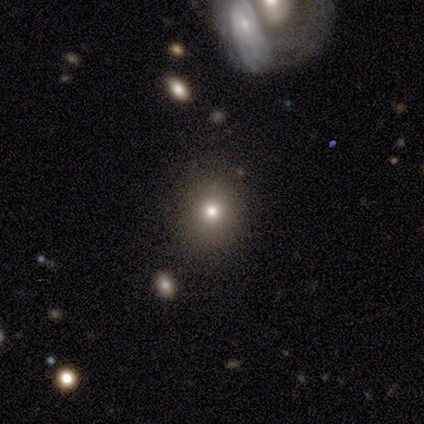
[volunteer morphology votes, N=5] This appears to be a smooth galaxy with no disk features (100%) that is round (60%). Merging: none (60%).